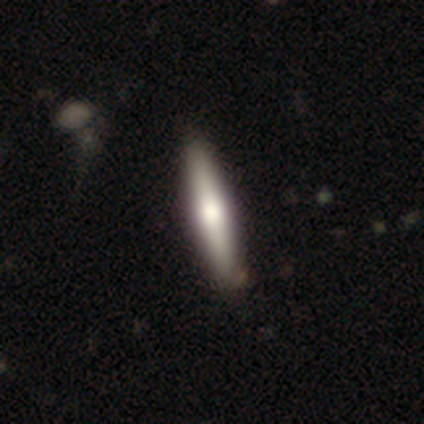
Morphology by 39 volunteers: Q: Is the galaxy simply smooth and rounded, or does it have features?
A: smooth — 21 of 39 (54%).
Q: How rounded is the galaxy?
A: cigar-shaped — 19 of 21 (90%).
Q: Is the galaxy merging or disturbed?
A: none — 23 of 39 (59%).